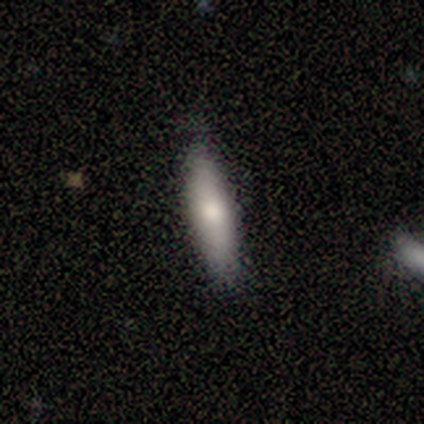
A smooth galaxy with no disk features (83%) that is cigar-shaped (80%).

Vote fractions:
- Smooth or featured? smooth: 83% / featured or disk: 17% / star or artifact: 0%
- How rounded? cigar-shaped: 80% / round: 20% / in between: 0%
- Merging? none: 83% / minor disturbance: 17% / major disturbance: 0% / merger: 0%